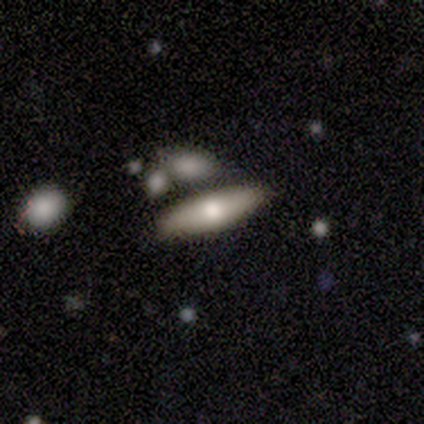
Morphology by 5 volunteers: smooth 60%, star or artifact 40%, featured or disk 0%. Down the decision tree: how rounded — cigar-shaped (67%); merging — merger (67%).